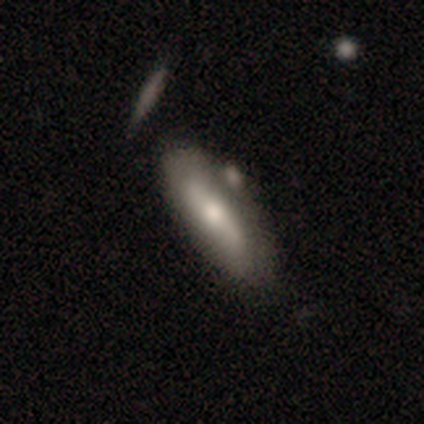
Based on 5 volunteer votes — Smooth or featured?
  - smooth: 60% *
  - featured or disk: 40%
  - star or artifact: 0%
How rounded?
  - in between: 67% *
  - cigar-shaped: 33%
  - round: 0%
Merging?
  - merger: 60% *
  - none: 20%
  - minor disturbance: 20%
  - major disturbance: 0%